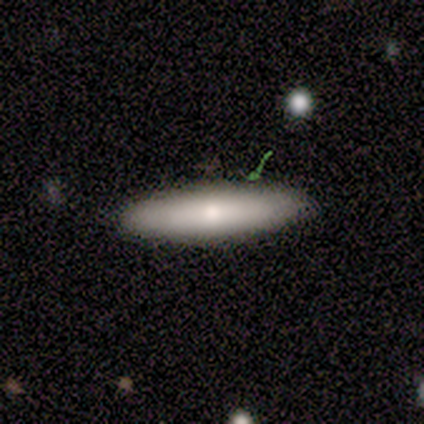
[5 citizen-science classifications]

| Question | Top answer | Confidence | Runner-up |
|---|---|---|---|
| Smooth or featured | smooth | 80% | star or artifact (20%) |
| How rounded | cigar-shaped | 75% | in between (25%) |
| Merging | none | 100% | — |